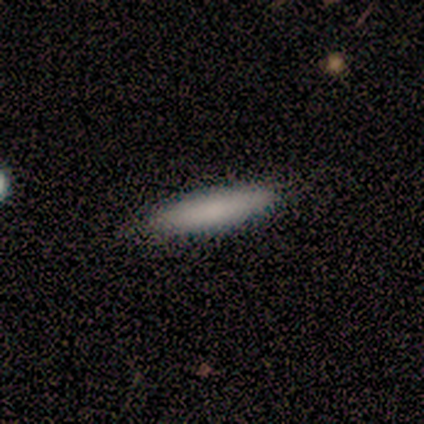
smooth_or_featured: smooth (p=1.00)
how_rounded: cigar-shaped (p=0.78) [alt: in between p=0.22]
merging: none (p=0.89) [alt: minor disturbance p=0.11]